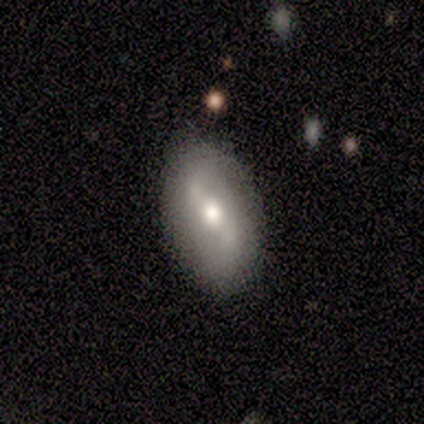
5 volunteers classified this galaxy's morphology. A featured or disk galaxy (100%) with a weak bar (60%), 2 (100%) loose (100%) spiral arms (80%) and a moderate central bulge (100%).

Vote fractions:
- Smooth or featured? featured or disk: 100% / smooth: 0% / star or artifact: 0%
- Edge-on disk? no: 100% / yes: 0%
- Bar? weak: 60% / strong: 20% / no: 20%
- Spiral arms? yes: 80% / no: 20%
- Spiral winding? loose: 100% / tight: 0% / medium: 0%
- Spiral arm count? 2: 100% / 1: 0% / 3: 0% / 4: 0% / more than 4: 0% / can't tell: 0%
- Bulge size? moderate: 100% / dominant: 0% / large: 0% / small: 0% / none: 0%
- Merging? none: 80% / minor disturbance: 20% / major disturbance: 0% / merger: 0%